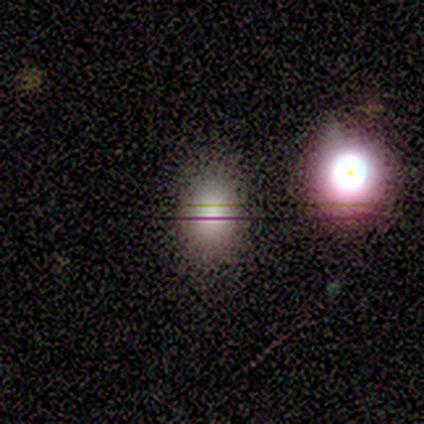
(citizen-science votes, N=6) smooth_or_featured: smooth (p=0.67) [alt: star or artifact p=0.33]
how_rounded: in between (p=0.75) [alt: round p=0.25]
merging: none (p=1.00)